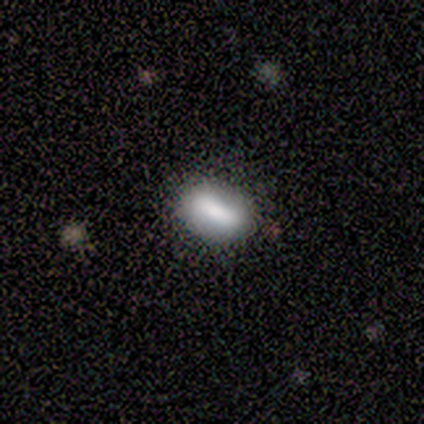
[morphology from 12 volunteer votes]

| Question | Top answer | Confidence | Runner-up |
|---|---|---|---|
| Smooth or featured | smooth | 75% | star or artifact (17%) |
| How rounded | in between | 67% | cigar-shaped (33%) |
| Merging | none | 100% | — |